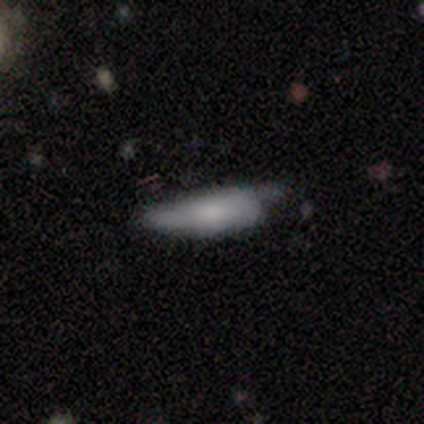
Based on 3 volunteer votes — Smooth or featured? 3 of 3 (100%) said smooth. How rounded? 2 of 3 (67%) said in between. Merging? 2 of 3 (67%) said minor disturbance.